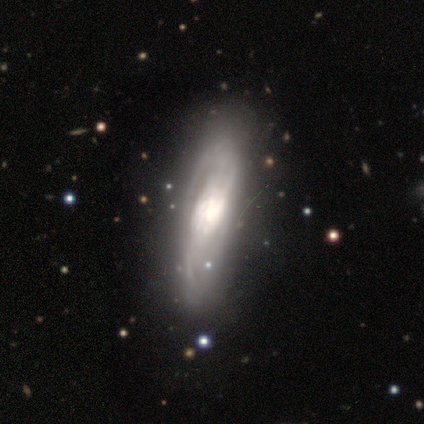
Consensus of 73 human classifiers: Smooth or featured? featured or disk (84%)
Edge-on disk? no (70%)
Bar? no (58%)
Spiral arms? yes (84%)
Spiral winding? medium (36%)
Spiral arm count? 2 (61%)
Bulge size? large (51%)
Merging? none (35%)